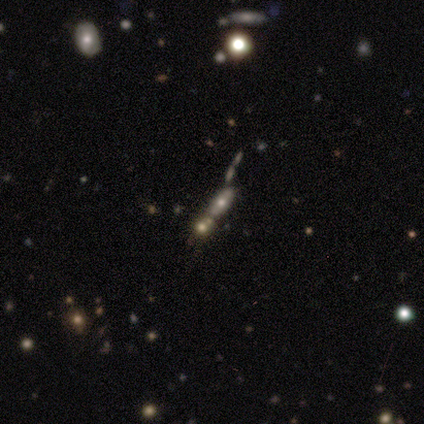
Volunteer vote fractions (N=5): Smooth or featured: smooth — 40% (tied with featured or disk — 40%)
How rounded: in between — 50% (tied with cigar-shaped — 50%)
Merging: minor disturbance — 75% (none — 25%)